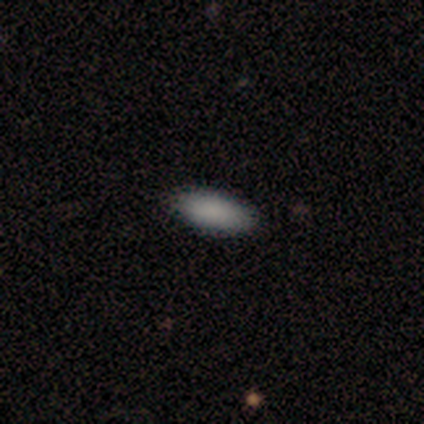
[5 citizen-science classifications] A smooth galaxy with no disk features (100%) that is in between round and cigar-shaped (100%).

Vote fractions:
- Smooth or featured? smooth: 100% / featured or disk: 0% / star or artifact: 0%
- How rounded? in between: 100% / round: 0% / cigar-shaped: 0%
- Merging? none: 100% / minor disturbance: 0% / major disturbance: 0% / merger: 0%